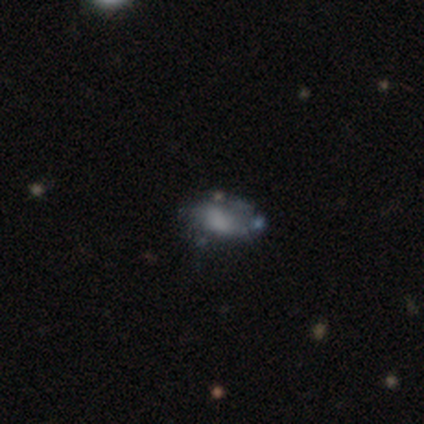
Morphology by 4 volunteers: smooth_or_featured: smooth (p=1.00)
how_rounded: in between (p=0.75) [alt: round p=0.25]
merging: none (p=0.75) [alt: minor disturbance p=0.25]